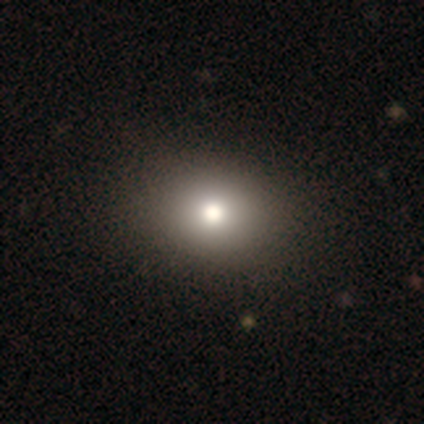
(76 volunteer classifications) smooth 78%, star or artifact 16%, featured or disk 7%. Down the decision tree: how rounded — round (68%); merging — none (45%).